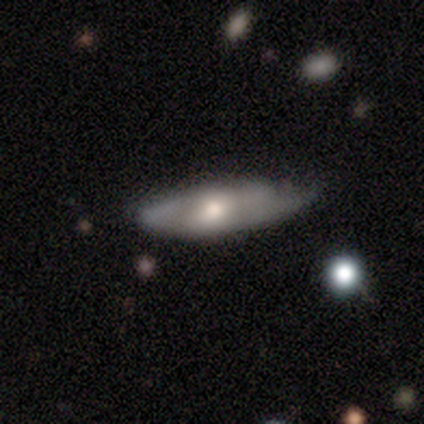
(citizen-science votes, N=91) Morphology: type=featured or disk (49%); edge-on=no (56%); bar=no (60%); spiral arms=no (52%); bulge=moderate (64%); merging=none (54%).